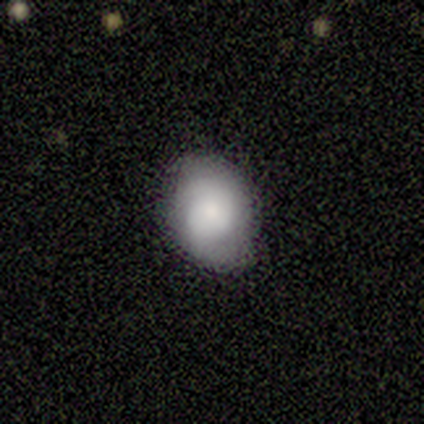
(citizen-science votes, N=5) Q: Smooth or featured?
A: featured or disk (60%); runner-up: smooth (40%)
Q: Edge-on disk?
A: no (67%); runner-up: yes (33%)
Q: Bar?
A: no (100%)
Q: Spiral arms?
A: yes (50%); tied with: no (50%)
Q: Spiral winding?
A: medium (100%)
Q: Spiral arm count?
A: 2 (100%)
Q: Bulge size?
A: moderate (100%)
Q: Merging?
A: none (60%); runner-up: minor disturbance (20%)